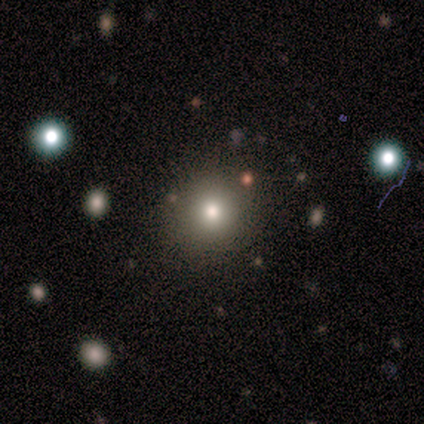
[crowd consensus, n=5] Overall: smooth (80%). How rounded: round (100%). Merging: none (100%).